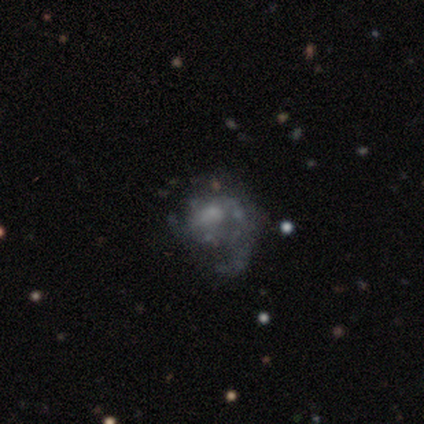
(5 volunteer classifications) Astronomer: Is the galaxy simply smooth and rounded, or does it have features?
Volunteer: featured or disk — 60% (runner-up: star or artifact, 40%).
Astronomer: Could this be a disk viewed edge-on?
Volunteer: no — 100%.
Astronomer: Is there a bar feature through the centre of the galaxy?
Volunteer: no — 67%.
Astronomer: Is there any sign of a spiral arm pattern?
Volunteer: yes — 100%.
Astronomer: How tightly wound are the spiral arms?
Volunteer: loose — 100%.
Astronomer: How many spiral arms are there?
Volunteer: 1 — 67%.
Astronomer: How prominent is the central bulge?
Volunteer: moderate — 33%, tied with small and none at 33%.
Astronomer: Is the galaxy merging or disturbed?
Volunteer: none — 100%.